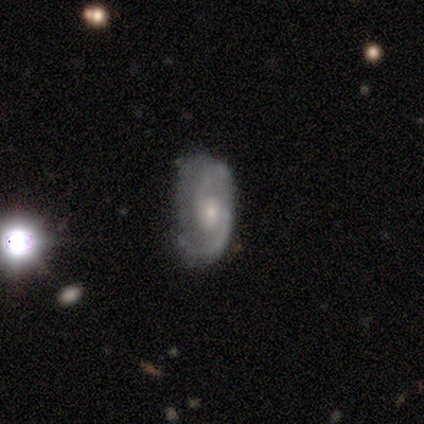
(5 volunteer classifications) Q: Smooth or featured?
A: featured or disk (100%)
Q: Edge-on disk?
A: no (100%)
Q: Bar?
A: no (80%); runner-up: weak (20%)
Q: Spiral arms?
A: yes (100%)
Q: Spiral winding?
A: medium (40%); tied with: loose (40%)
Q: Spiral arm count?
A: 2 (80%); runner-up: 1 (20%)
Q: Bulge size?
A: moderate (40%); runner-up: large (20%)
Q: Merging?
A: none (60%); runner-up: minor disturbance (40%)